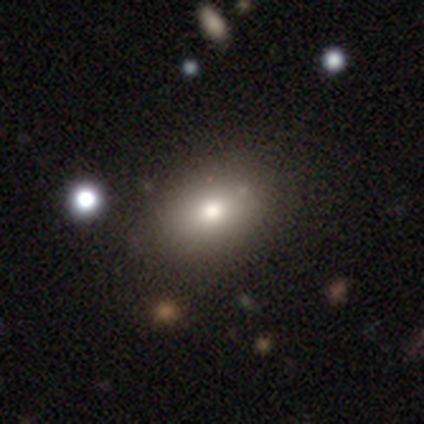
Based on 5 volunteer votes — Q: Smooth or featured?
A: smooth (100%)
Q: How rounded?
A: in between (100%)
Q: Merging?
A: none (100%)